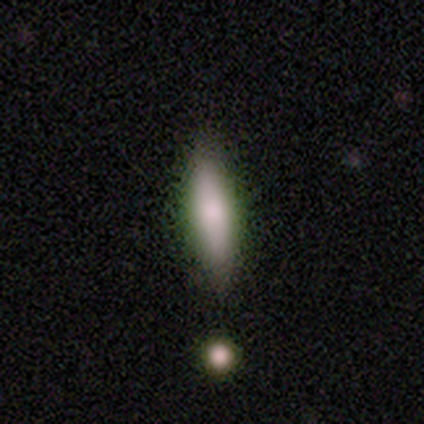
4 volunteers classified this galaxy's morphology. Q: Smooth or featured?
A: smooth (75%); runner-up: featured or disk (25%)
Q: How rounded?
A: cigar-shaped (67%); runner-up: in between (33%)
Q: Merging?
A: none (75%); runner-up: merger (25%)